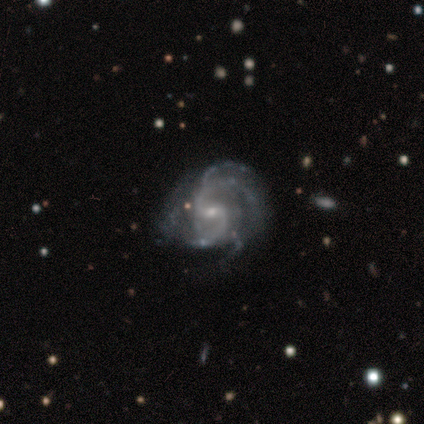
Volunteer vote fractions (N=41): Volunteers were most divided on "spiral arm count": 2: 34%, 3: 32%, can't tell: 16%, 4: 13%, more than 4: 5%, 1: 0%. Remaining: edge-on disk — no (100%); spiral arms — yes (97%); smooth or featured — featured or disk (95%); bar — weak (69%); spiral winding — medium (61%); bulge size — small (54%); merging — none (49%).